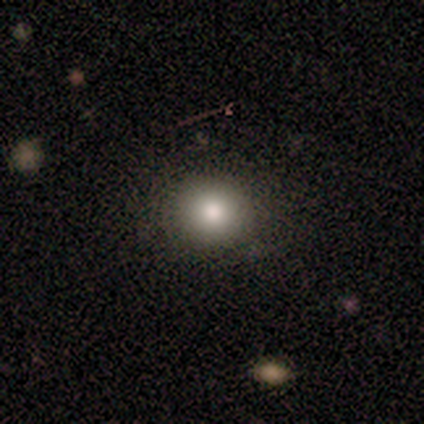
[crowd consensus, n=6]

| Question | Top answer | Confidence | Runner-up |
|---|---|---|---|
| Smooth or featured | smooth | 100% | — |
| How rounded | round | 83% | in between (17%) |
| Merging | none | 100% | — |